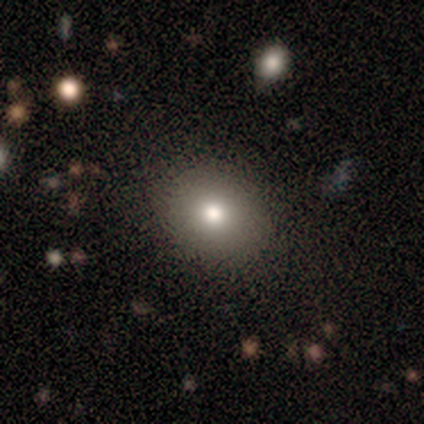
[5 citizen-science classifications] This is clearly a smooth galaxy (100%). How rounded: clearly round (100%). Merging: clearly none (100%).